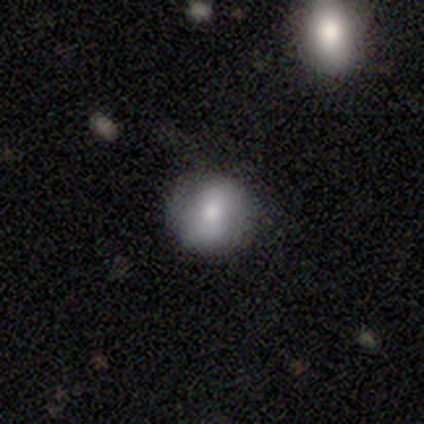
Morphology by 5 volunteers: Smooth or featured: smooth — 80% (featured or disk — 20%)
How rounded: round — 75% (in between — 25%)
Merging: none — 100%